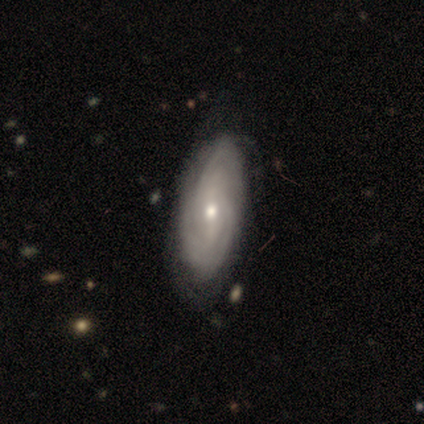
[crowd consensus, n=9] Q: Smooth or featured?
A: featured or disk (78%); runner-up: smooth (11%)
Q: Edge-on disk?
A: no (100%)
Q: Bar?
A: no (71%); runner-up: strong (14%)
Q: Spiral arms?
A: yes (100%)
Q: Spiral winding?
A: tight (71%); runner-up: medium (29%)
Q: Spiral arm count?
A: can't tell (57%); runner-up: 2 (29%)
Q: Bulge size?
A: moderate (57%); runner-up: small (43%)
Q: Merging?
A: none (62%); runner-up: minor disturbance (25%)